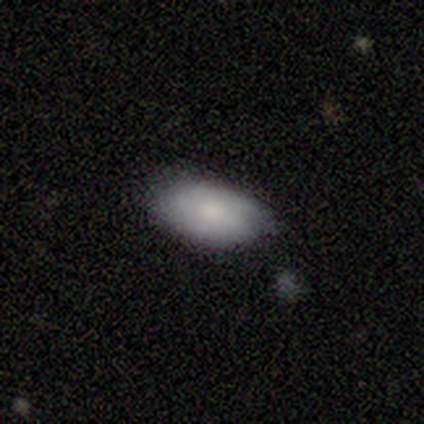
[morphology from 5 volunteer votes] smooth_or_featured: featured or disk (p=0.60) [alt: smooth p=0.40]
disk_edge_on: no (p=1.00)
bar: no (p=0.67) [alt: weak p=0.33]
has_spiral_arms: no (p=0.67) [alt: yes p=0.33]
bulge_size: small (p=0.67) [alt: none p=0.33]
merging: none (p=1.00)